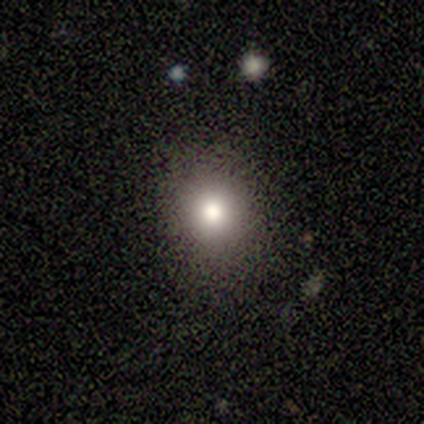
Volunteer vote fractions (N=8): A smooth galaxy with no disk features (50%) that is round (100%).

Vote fractions:
- Smooth or featured? smooth: 50% / featured or disk: 25% / star or artifact: 25%
- How rounded? round: 100% / in between: 0% / cigar-shaped: 0%
- Merging? none: 83% / major disturbance: 17% / minor disturbance: 0% / merger: 0%